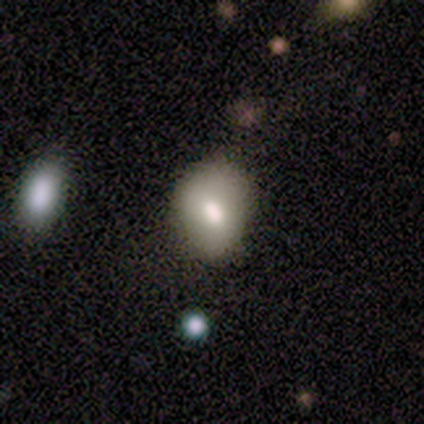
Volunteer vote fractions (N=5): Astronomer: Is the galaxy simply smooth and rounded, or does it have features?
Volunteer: smooth — 60%.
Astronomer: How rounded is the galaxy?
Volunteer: round — 67%.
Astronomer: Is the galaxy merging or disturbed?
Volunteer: none — 75%.